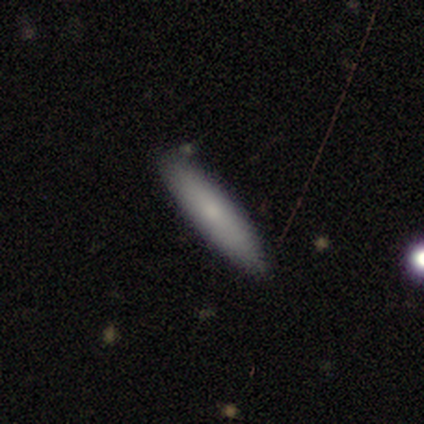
Smooth or featured?
  - smooth: 79% *
  - featured or disk: 18%
  - star or artifact: 3%
How rounded?
  - cigar-shaped: 93% *
  - in between: 7%
  - round: 0%
Merging?
  - none: 89% *
  - minor disturbance: 11%
  - major disturbance: 0%
  - merger: 0%